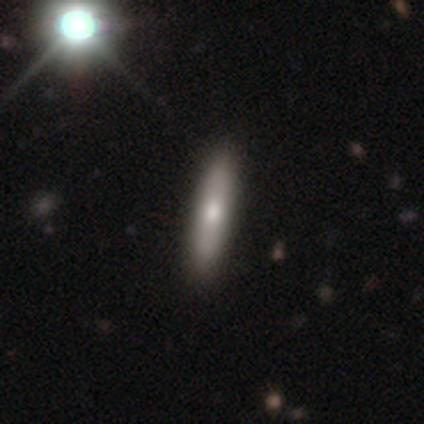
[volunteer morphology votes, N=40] smooth-or-featured: smooth: 68% | featured or disk: 28% | star or artifact: 5%
  how-rounded: cigar-shaped: 85% | in between: 15% | round: 0%
  merging: none: 61% | minor disturbance: 8% | major disturbance: 0% | merger: 0%